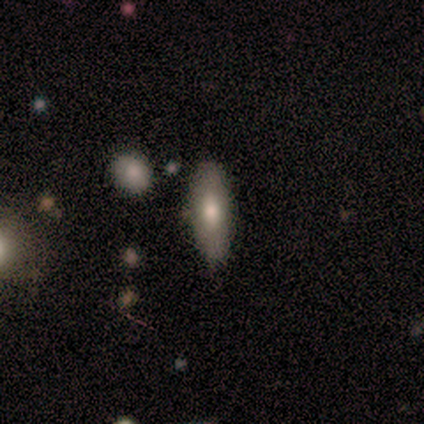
Overall: smooth (60%; featured or disk 40%). How rounded: in between (100%). Merging: none (100%).